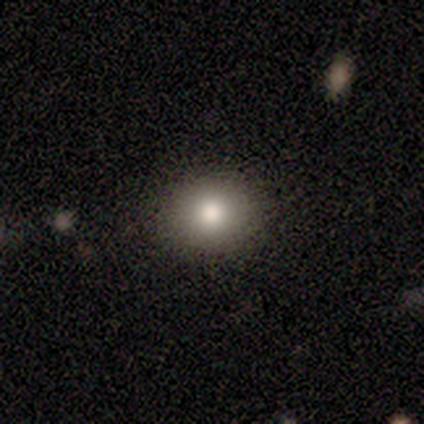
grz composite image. It shows a smooth galaxy with no disk features (80%) that is round (100%). Merging: none (80%).